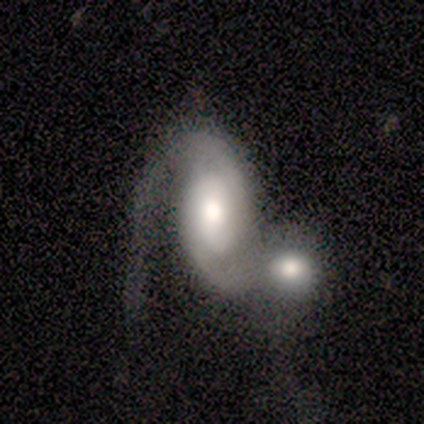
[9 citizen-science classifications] Smooth or featured? featured or disk (78%)
Edge-on disk? no (100%)
Bar? no (57%)
Spiral arms? yes (100%)
Spiral winding? medium (57%)
Spiral arm count? 2 (100%)
Bulge size? large (43%, tied with moderate)
Merging? merger (89%)